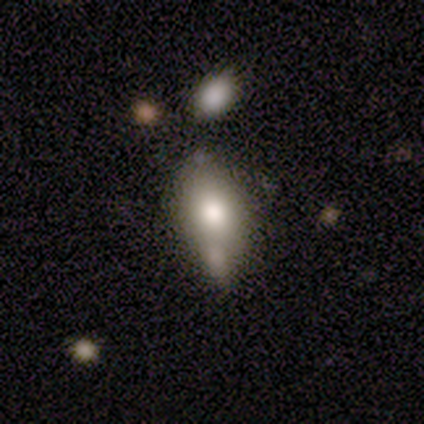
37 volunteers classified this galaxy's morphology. smooth_or_featured: smooth (p=0.65) [alt: featured or disk p=0.22]
how_rounded: in between (p=0.96) [alt: cigar-shaped p=0.04]
merging: none (p=0.34) [alt: minor disturbance p=0.31]